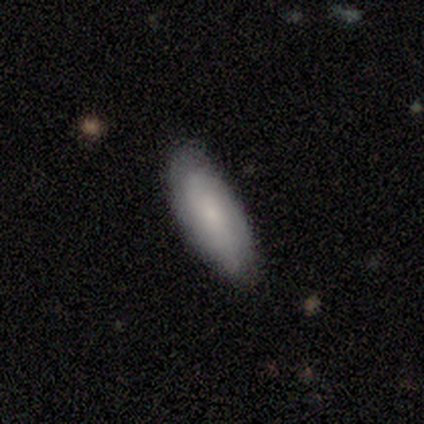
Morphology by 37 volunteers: Volunteers were most divided on "smooth or featured": smooth: 57%, featured or disk: 32%, star or artifact: 11%. More confident: merging — none (88%); how rounded — in between (62%).